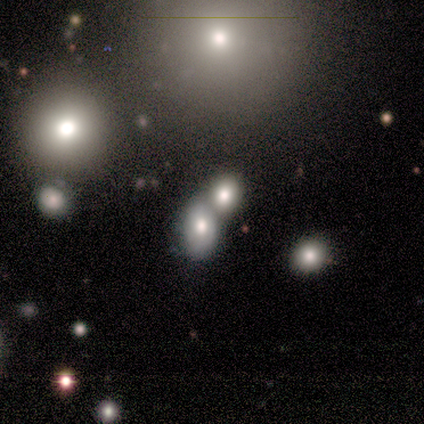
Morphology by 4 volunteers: Overall: smooth (50%, tied with star or artifact). How rounded: in between (100%). Merging: merger (100%).